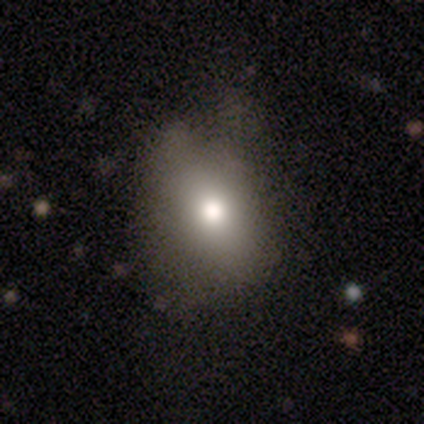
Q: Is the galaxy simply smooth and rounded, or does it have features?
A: smooth — 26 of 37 (70%).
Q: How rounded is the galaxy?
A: in between — 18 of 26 (69%).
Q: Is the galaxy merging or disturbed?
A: none — 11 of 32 (34%).